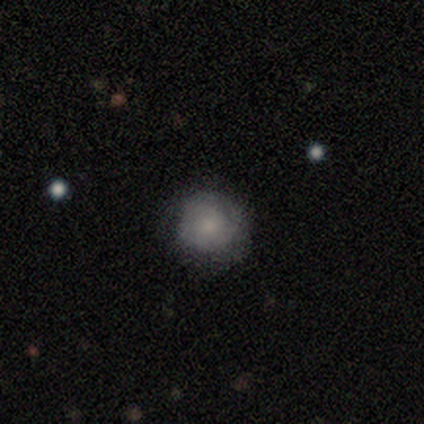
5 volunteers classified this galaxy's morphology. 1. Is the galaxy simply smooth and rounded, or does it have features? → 100% smooth, 0% featured or disk, 0% star or artifact.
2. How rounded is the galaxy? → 100% round, 0% in between, 0% cigar-shaped.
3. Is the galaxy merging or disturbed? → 100% none, 0% minor disturbance, 0% major disturbance, 0% merger.